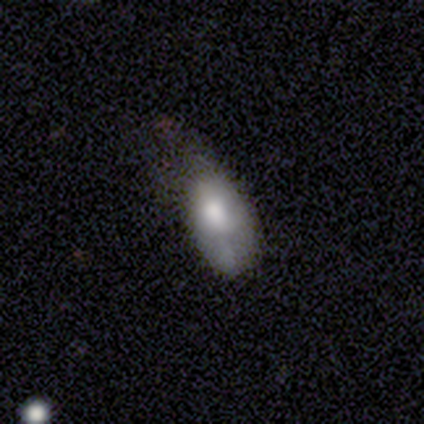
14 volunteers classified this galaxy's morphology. type=smooth (64%); roundness=in between (100%); merging=minor disturbance (54%).